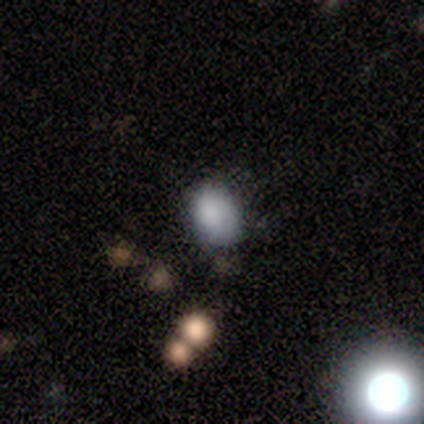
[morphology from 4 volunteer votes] smooth-or-featured: smooth: 100% | featured or disk: 0% | star or artifact: 0%
  how-rounded: round: 50% (tied) | in between: 50% (tied) | cigar-shaped: 0%
  merging: none: 50% | major disturbance: 25% | merger: 25% | minor disturbance: 0%